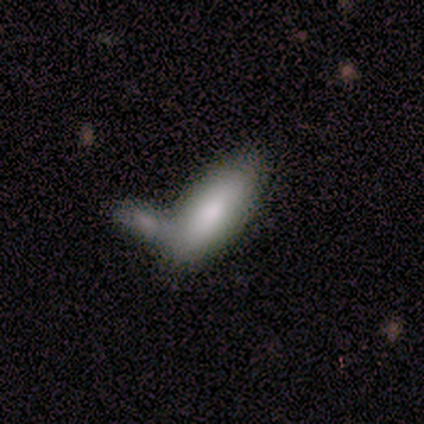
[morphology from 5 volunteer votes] type=smooth (80%); roundness=in between (100%); merging=merger (50%).